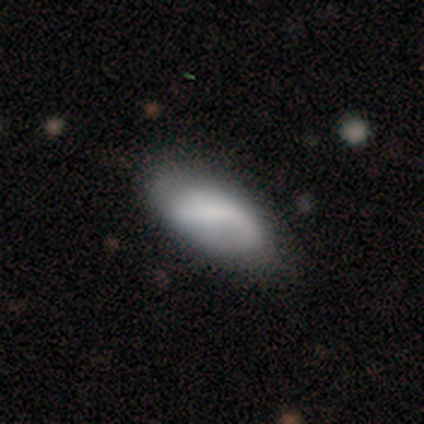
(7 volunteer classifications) This appears to be a smooth galaxy with no disk features (71%) that is in between round and cigar-shaped (100%). Merging: minor disturbance (67%).